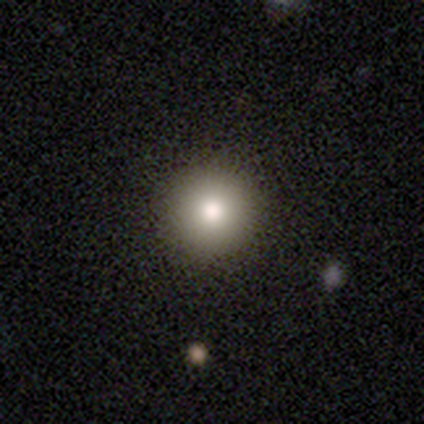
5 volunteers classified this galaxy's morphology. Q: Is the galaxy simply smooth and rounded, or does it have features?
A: smooth — 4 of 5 (80%).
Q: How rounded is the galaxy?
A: round — 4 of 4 (100%).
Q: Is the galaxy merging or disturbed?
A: none — 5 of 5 (100%).